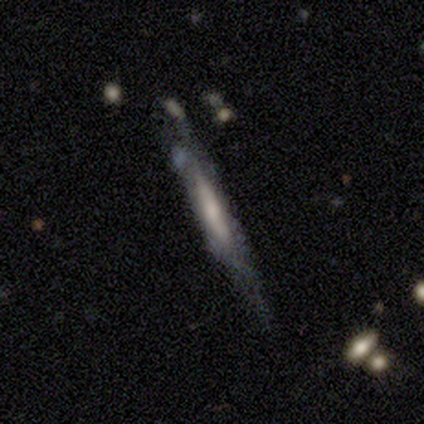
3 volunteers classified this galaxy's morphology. type=featured or disk (100%); edge-on=yes (67%); edge-on bulge=none (50%, tied with rounded); merging=none (100%).